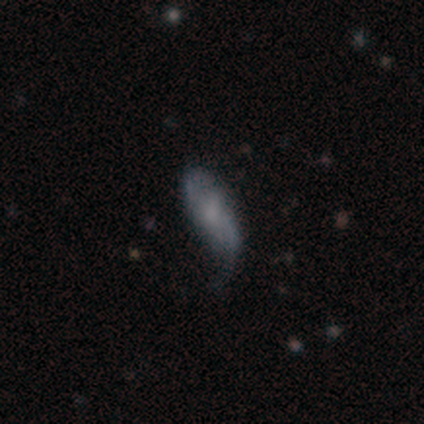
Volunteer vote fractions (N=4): smooth 50% (tied), featured or disk 50% (tied), star or artifact 0%. Down the decision tree: how rounded — in between (100%); merging — major disturbance (50%).